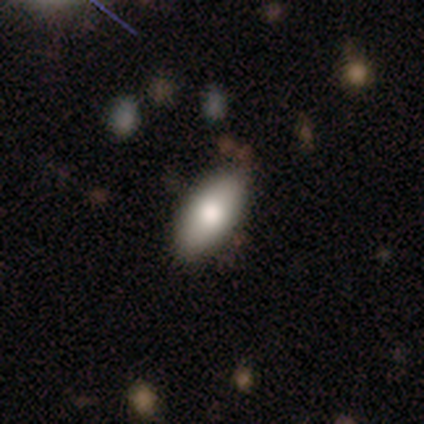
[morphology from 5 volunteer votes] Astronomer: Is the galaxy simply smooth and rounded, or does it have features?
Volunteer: smooth — 80%.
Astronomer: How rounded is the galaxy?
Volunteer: in between — 100%.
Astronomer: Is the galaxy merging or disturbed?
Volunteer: none — 60% (runner-up: minor disturbance, 40%).